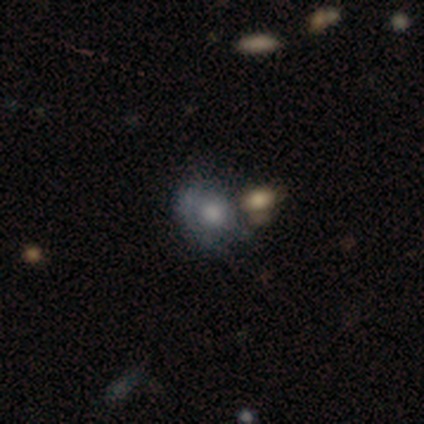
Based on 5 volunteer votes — Smooth or featured: featured or disk — 60% (smooth — 40%)
Edge-on disk: no — 100%
Bar: no — 100%
Spiral arms: no — 100%
Bulge size: large — 67% (moderate — 33%)
Merging: none — 80% (minor disturbance — 20%)